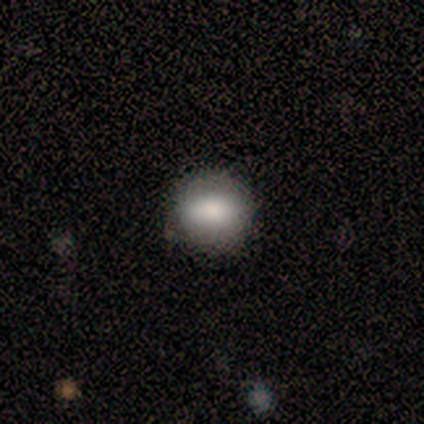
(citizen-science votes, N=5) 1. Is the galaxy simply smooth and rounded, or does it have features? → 80% smooth, 20% star or artifact, 0% featured or disk.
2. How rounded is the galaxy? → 75% round, 25% in between, 0% cigar-shaped.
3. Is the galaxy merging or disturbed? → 100% none, 0% minor disturbance, 0% major disturbance, 0% merger.